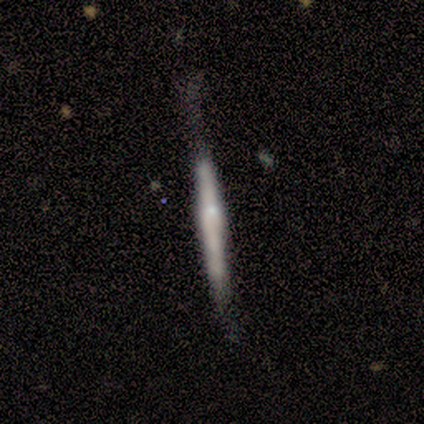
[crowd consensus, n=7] A featured or disk galaxy (71%) viewed edge-on (100%) with no central bulge (40%, tied with rounded). Merging: none (86%).